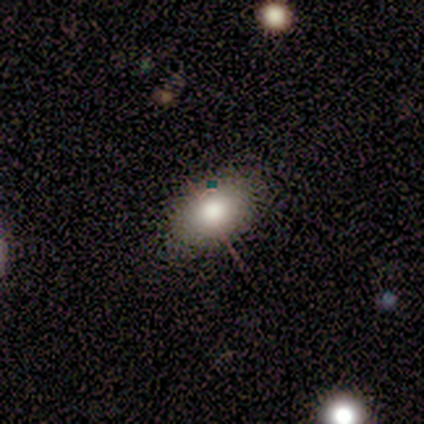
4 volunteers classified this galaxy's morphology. smooth 75%, star or artifact 25%, featured or disk 0%. Down the decision tree: how rounded — in between (100%); merging — none (100%).